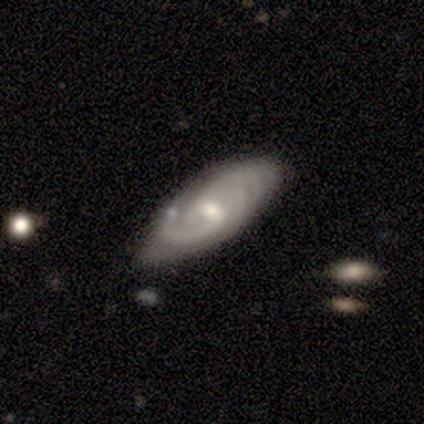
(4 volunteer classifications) Smooth or featured?
  - featured or disk: 75% *
  - smooth: 25%
  - star or artifact: 0%
Edge-on disk?
  - no: 100% *
  - yes: 0%
Bar?
  - weak: 100% *
  - strong: 0%
  - no: 0%
Spiral arms?
  - yes: 100% *
  - no: 0%
Spiral winding?
  - medium: 67% *
  - tight: 33%
  - loose: 0%
Spiral arm count?
  - can't tell: 100% *
  - 1: 0%
  - 2: 0%
  - 3: 0%
  - 4: 0%
  - more than 4: 0%
Bulge size?
  - moderate: 67% *
  - small: 33%
  - dominant: 0%
  - large: 0%
  - none: 0%
Merging?
  - none: 100% *
  - minor disturbance: 0%
  - major disturbance: 0%
  - merger: 0%